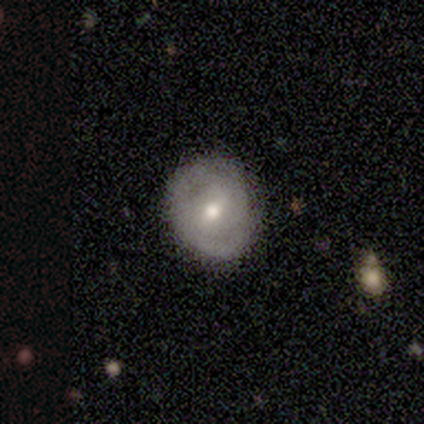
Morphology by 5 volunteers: Smooth or featured? 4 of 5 (80%) said featured or disk. Edge-on disk? 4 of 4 (100%) said no. Bar? 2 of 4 (50%) said no. Spiral arms? 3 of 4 (75%) said no. Bulge size? 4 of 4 (100%) said moderate. Merging? 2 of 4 (50%, tied with minor disturbance) said none.